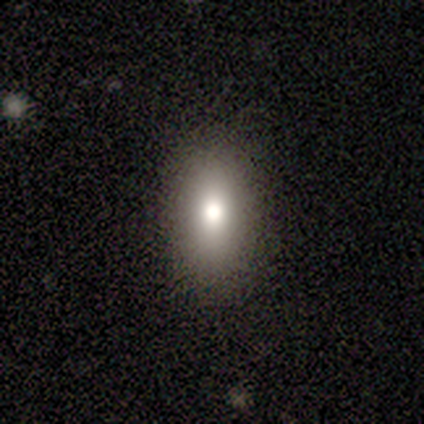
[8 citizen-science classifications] Q: Smooth or featured?
A: smooth (100%)
Q: How rounded?
A: in between (75%); runner-up: round (12%)
Q: Merging?
A: none (88%); runner-up: minor disturbance (12%)